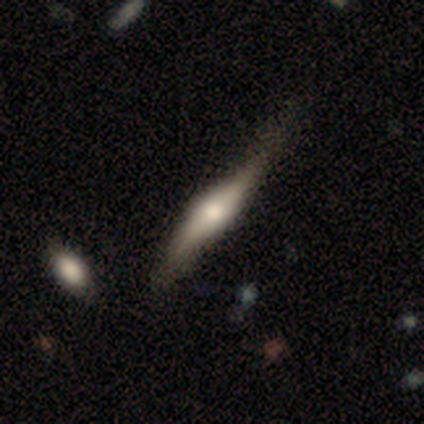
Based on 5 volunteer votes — Smooth or featured: smooth — 60% (featured or disk — 40%)
How rounded: cigar-shaped — 67% (in between — 33%)
Merging: minor disturbance — 80% (none — 20%)